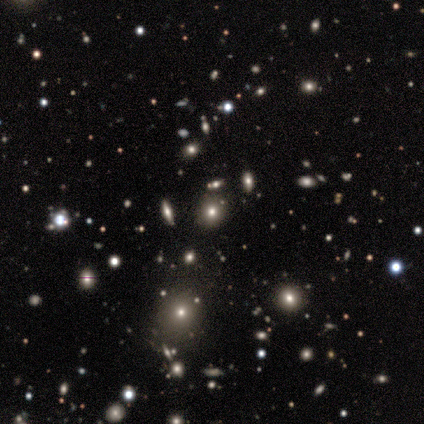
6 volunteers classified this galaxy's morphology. Smooth or featured? star or artifact (50%)